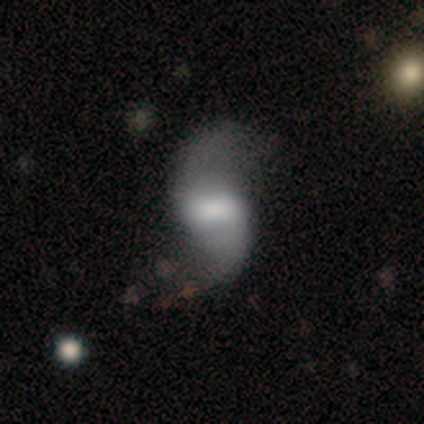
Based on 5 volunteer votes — Overall: featured or disk (60%; smooth 40%). Edge-on disk: no (100%). Bar: strong (67%; weak 33%). Spiral arms: yes (67%; no 33%). Spiral arm count: 2 (100%). Spiral winding: loose (100%). Bulge size: large (33%, tied with small and none). Merging: major disturbance (80%).